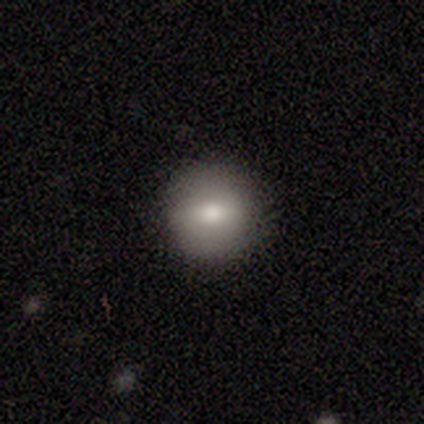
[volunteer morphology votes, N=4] Overall: smooth (100%). How rounded: round (75%). Merging: none (75%).